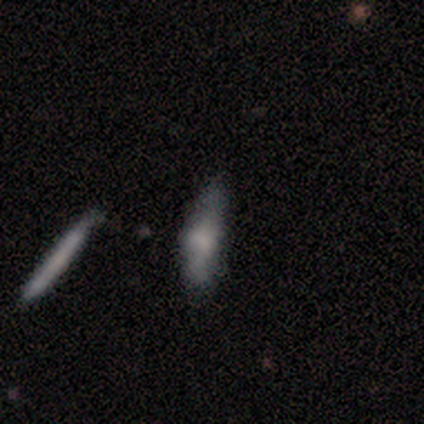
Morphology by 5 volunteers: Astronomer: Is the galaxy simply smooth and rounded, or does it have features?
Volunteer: featured or disk — 80%.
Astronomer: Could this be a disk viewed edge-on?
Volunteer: yes — 75%.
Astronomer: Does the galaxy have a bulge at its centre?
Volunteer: rounded — 100%.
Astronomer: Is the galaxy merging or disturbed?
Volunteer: none — 80%.